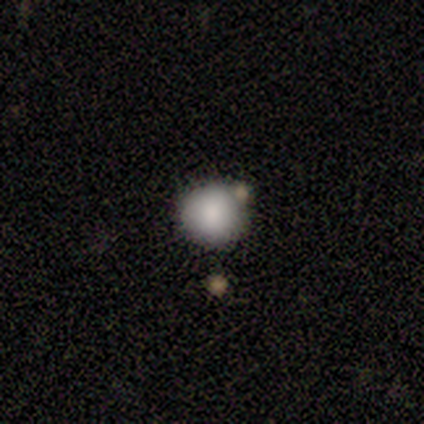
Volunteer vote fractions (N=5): This appears to be a smooth galaxy with no disk features (100%) that is round (100%). Merging: none (100%).